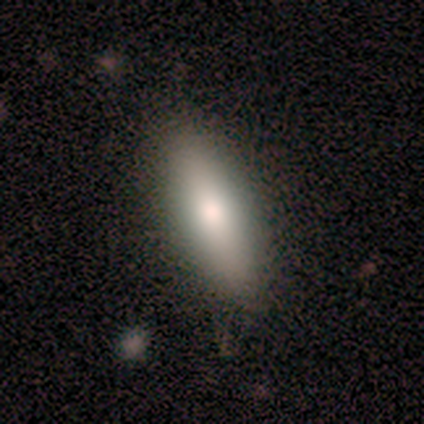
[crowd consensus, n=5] A smooth galaxy with no disk features (80%) that is in between round and cigar-shaped (50%, tied with cigar-shaped).

Vote fractions:
- Smooth or featured? smooth: 80% / featured or disk: 20% / star or artifact: 0%
- How rounded? in between: 50% (tied) / cigar-shaped: 50% (tied) / round: 0%
- Merging? none: 80% / minor disturbance: 20% / major disturbance: 0% / merger: 0%